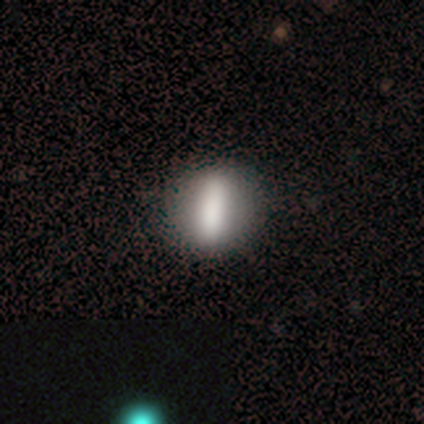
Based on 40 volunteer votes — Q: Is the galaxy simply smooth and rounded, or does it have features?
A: smooth — 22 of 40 (55%).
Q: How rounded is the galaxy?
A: round — 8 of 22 (36%).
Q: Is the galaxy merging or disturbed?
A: none — 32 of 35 (91%).